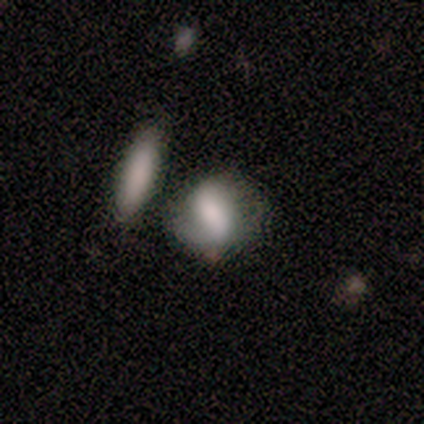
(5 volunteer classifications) A smooth galaxy with no disk features (80%) that is in between round and cigar-shaped (75%). Merging: minor disturbance (60%).